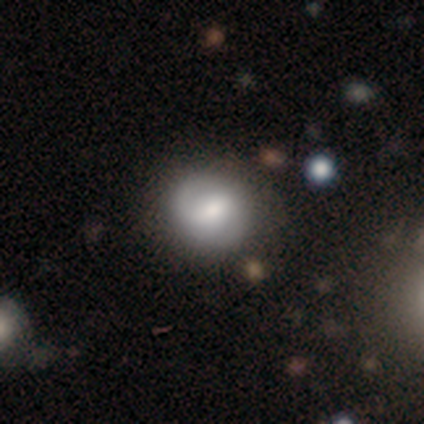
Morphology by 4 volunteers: This appears to be a smooth galaxy with no disk features (50%) that is round (100%). Merging: none (67%).